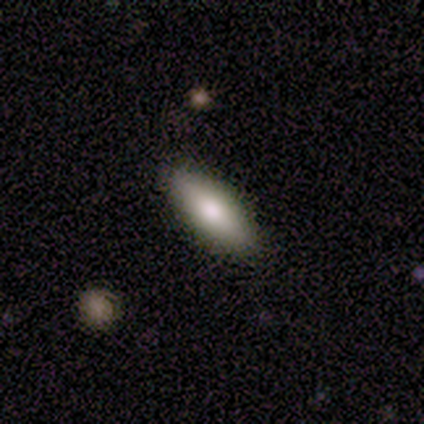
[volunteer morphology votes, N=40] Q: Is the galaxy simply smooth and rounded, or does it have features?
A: smooth — 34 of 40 (85%).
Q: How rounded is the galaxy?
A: in between — 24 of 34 (71%).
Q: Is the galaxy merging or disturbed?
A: none — 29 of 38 (76%).